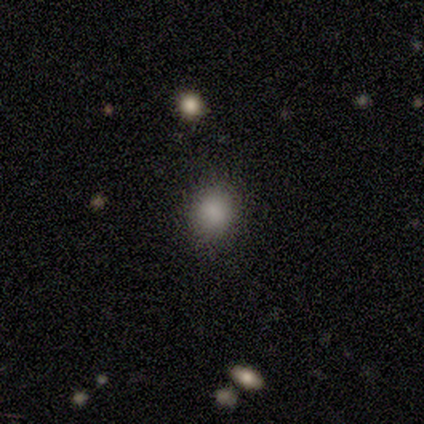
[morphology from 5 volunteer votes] Smooth or featured? star or artifact (80%)